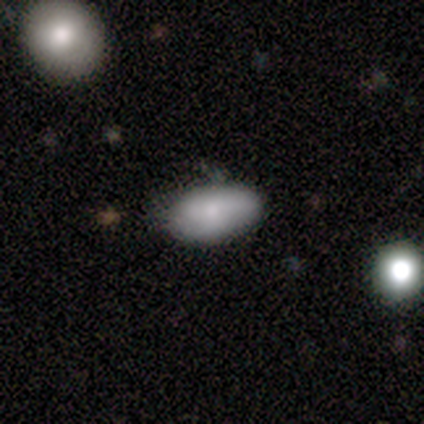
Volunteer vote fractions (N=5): Volunteers were most divided on "merging": minor disturbance: 60%, none: 40%, major disturbance: 0%, merger: 0%. More confident: how rounded — in between (100%); smooth or featured — smooth (80%).